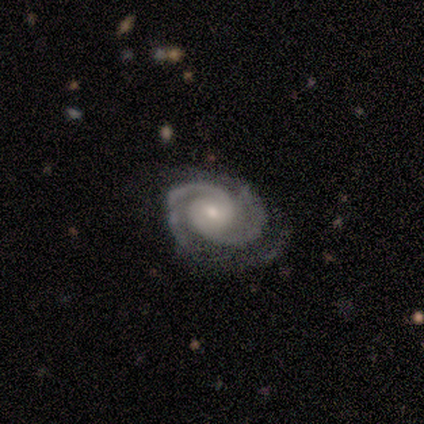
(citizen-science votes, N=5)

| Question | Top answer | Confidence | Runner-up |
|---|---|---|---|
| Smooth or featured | featured or disk | 100% | — |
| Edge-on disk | no | 100% | — |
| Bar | no | 80% | weak (20%) |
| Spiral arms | yes | 100% | — |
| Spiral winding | tight | 80% | medium (20%) |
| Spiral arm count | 2 | 100% | — |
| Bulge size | small | 80% | moderate (20%) |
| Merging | none | 60% | minor disturbance (40%) |